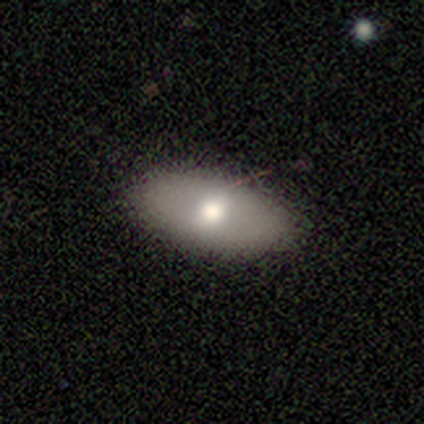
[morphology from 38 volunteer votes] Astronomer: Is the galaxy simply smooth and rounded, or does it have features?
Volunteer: smooth — 61%.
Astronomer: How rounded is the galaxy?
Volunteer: in between — 87%.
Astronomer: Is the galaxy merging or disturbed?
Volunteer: none — 91%.